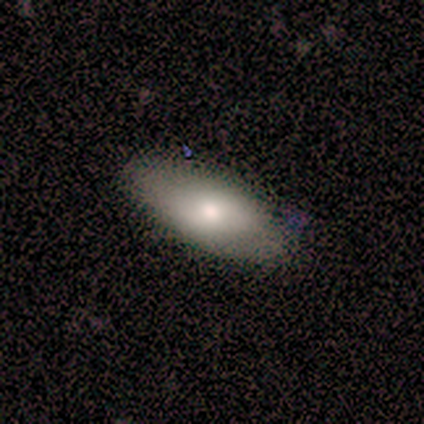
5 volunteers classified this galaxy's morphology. type=smooth (80%); roundness=in between (100%); merging=none (80%).